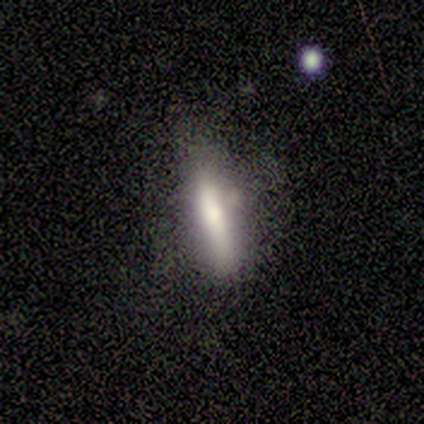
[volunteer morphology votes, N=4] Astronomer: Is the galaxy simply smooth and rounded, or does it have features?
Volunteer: smooth — 75%.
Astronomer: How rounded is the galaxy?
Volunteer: cigar-shaped — 100%.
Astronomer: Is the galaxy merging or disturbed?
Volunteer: none — 75%.